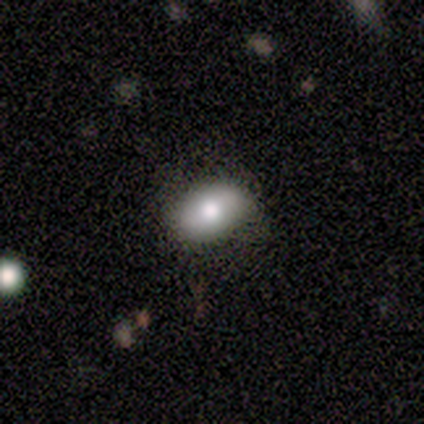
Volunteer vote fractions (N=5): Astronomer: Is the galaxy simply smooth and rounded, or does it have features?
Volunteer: smooth — 80%.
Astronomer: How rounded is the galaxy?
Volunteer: in between — 100%.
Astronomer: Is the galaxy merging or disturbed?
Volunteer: none — 80%.